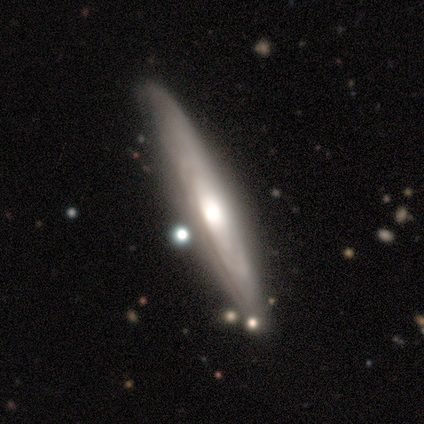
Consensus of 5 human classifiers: Consensus on every question: smooth or featured — featured or disk (100%); edge-on disk — yes (100%); edge-on bulge — rounded (100%); merging — none (100%).